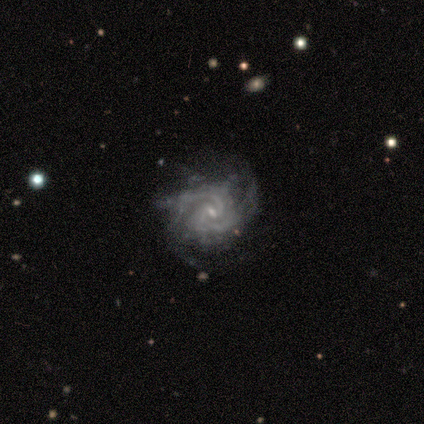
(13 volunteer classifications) A featured or disk galaxy (100%) with no bar (69%), 2 (54%) tight (69%) spiral arms (100%) and a small central bulge (85%).

Vote fractions:
- Smooth or featured? featured or disk: 100% / smooth: 0% / star or artifact: 0%
- Edge-on disk? no: 100% / yes: 0%
- Bar? no: 69% / weak: 31% / strong: 0%
- Spiral arms? yes: 100% / no: 0%
- Spiral winding? tight: 69% / medium: 31% / loose: 0%
- Spiral arm count? 2: 54% / can't tell: 23% / 3: 15% / more than 4: 8% / 1: 0% / 4: 0%
- Bulge size? small: 85% / moderate: 15% / dominant: 0% / large: 0% / none: 0%
- Merging? none: 92% / major disturbance: 8% / minor disturbance: 0% / merger: 0%